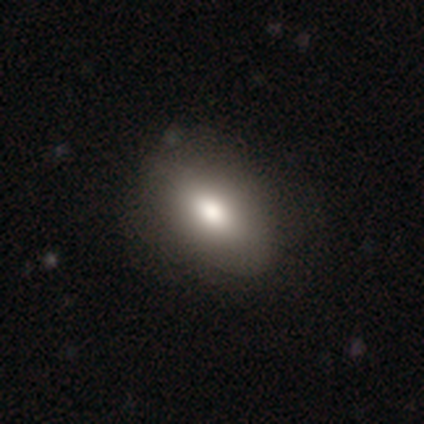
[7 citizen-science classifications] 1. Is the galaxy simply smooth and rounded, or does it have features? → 86% smooth, 14% featured or disk, 0% star or artifact.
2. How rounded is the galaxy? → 83% in between, 17% cigar-shaped, 0% round.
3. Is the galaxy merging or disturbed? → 86% none, 14% major disturbance, 0% minor disturbance, 0% merger.